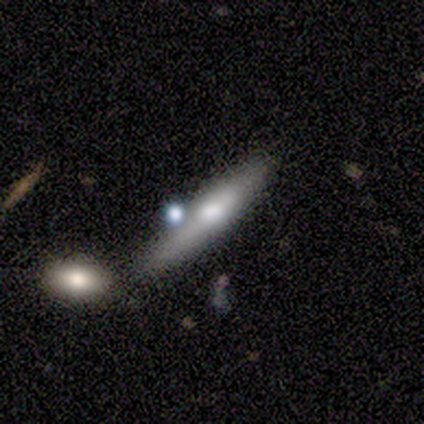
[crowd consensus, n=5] This is marginally a featured or disk galaxy (40%, tied with star or artifact). It is possibly viewed edge-on (50%, tied with no). Edge-on bulge: clearly rounded (100%). Merging: marginally none (33%, tied with minor disturbance and merger).